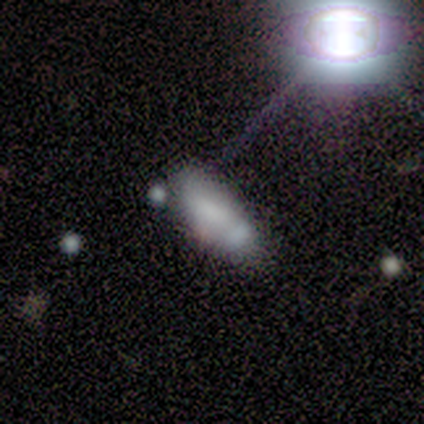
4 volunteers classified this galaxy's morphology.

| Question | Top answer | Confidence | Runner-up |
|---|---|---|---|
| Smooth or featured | smooth | 100% | — |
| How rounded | cigar-shaped | 75% | in between (25%) |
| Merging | minor disturbance | 50% | none (25%) |